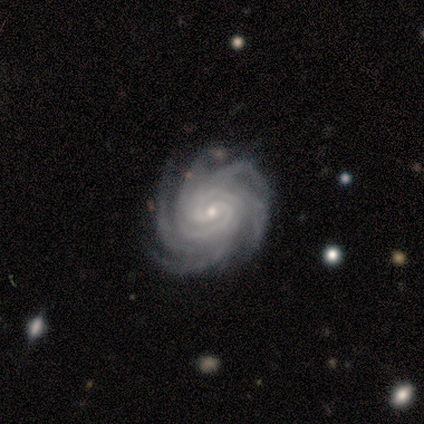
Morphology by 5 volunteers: Smooth or featured? 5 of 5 (100%) said featured or disk. Edge-on disk? 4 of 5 (80%) said no. Bar? 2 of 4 (50%) said no. Spiral arms? 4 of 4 (100%) said yes. Spiral winding? 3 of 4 (75%) said tight. Spiral arm count? 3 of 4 (75%) said more than 4. Bulge size? 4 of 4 (100%) said small. Merging? 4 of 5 (80%) said none.